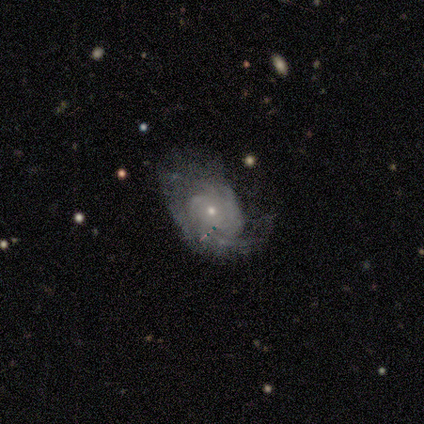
Smooth or featured?
  - featured or disk: 100% *
  - smooth: 0%
  - star or artifact: 0%
Edge-on disk?
  - no: 100% *
  - yes: 0%
Bar?
  - no: 80% *
  - weak: 20%
  - strong: 0%
Spiral arms?
  - yes: 100% *
  - no: 0%
Spiral winding?
  - tight: 60% *
  - medium: 20%
  - loose: 20%
Spiral arm count?
  - can't tell: 40% *
  - 1: 20%
  - 2: 20%
  - 4: 20%
  - 3: 0%
  - more than 4: 0%
Bulge size?
  - small: 100% *
  - dominant: 0%
  - large: 0%
  - moderate: 0%
  - none: 0%
Merging?
  - none: 40% * (tied)
  - minor disturbance: 40% * (tied)
  - major disturbance: 20%
  - merger: 0%